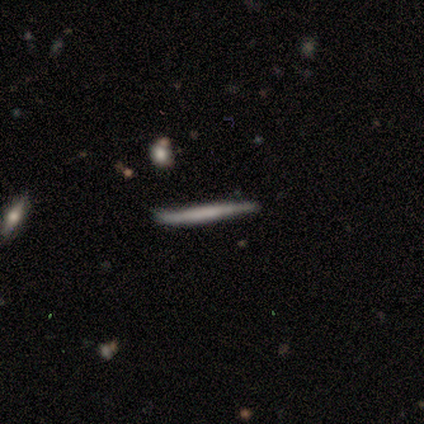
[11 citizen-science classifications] smooth_or_featured: featured or disk (p=0.64) [alt: smooth p=0.36]
disk_edge_on: yes (p=0.71) [alt: no p=0.29]
edge_on_bulge: none (p=0.80) [alt: boxy p=0.20]
merging: none (p=1.00)